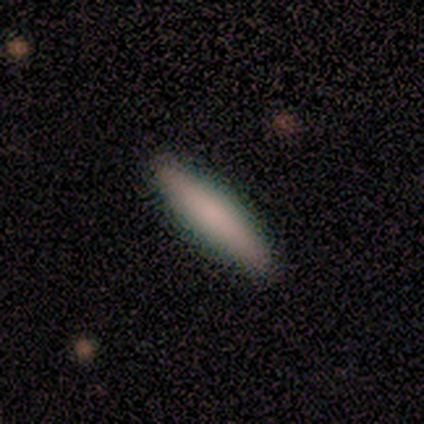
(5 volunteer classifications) Smooth or featured: smooth — 60% (featured or disk — 40%)
How rounded: cigar-shaped — 67% (in between — 33%)
Merging: none — 100%